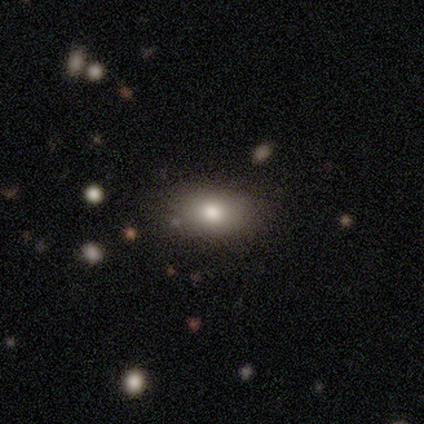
Overall: smooth (88%). How rounded: in between (94%). Merging: none (63%).